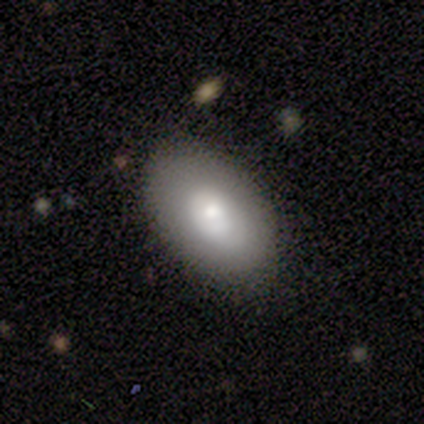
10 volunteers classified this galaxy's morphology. A smooth galaxy with no disk features (50%, tied with featured or disk) that is in between round and cigar-shaped (80%).

Vote fractions:
- Smooth or featured? smooth: 50% (tied) / featured or disk: 50% (tied) / star or artifact: 0%
- How rounded? in between: 80% / round: 20% / cigar-shaped: 0%
- Merging? none: 80% / minor disturbance: 20% / major disturbance: 0% / merger: 0%